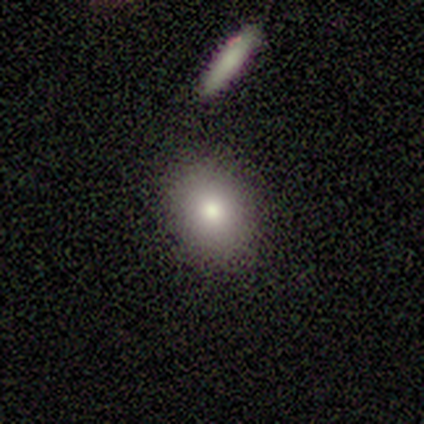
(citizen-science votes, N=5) Smooth or featured?
  - smooth: 100% *
  - featured or disk: 0%
  - star or artifact: 0%
How rounded?
  - in between: 60% *
  - round: 40%
  - cigar-shaped: 0%
Merging?
  - none: 60% *
  - minor disturbance: 40%
  - major disturbance: 0%
  - merger: 0%